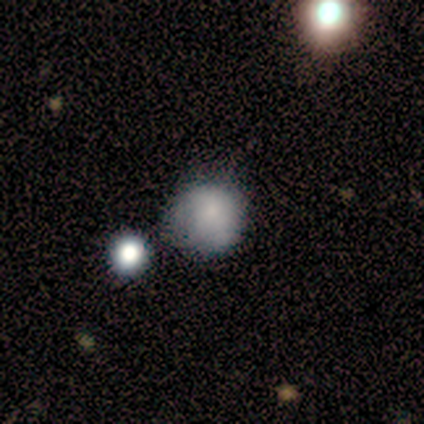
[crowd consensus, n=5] A smooth galaxy with no disk features (80%) that is round (100%). Merging: none (50%).